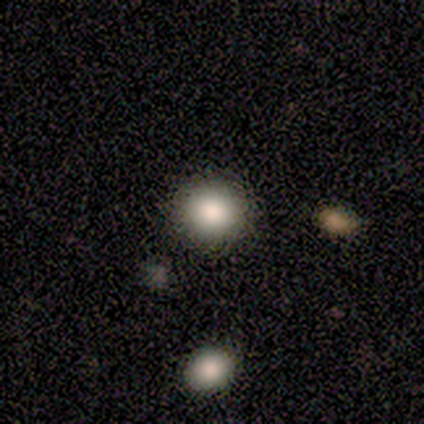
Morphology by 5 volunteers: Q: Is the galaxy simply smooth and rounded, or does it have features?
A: smooth — 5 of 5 (100%).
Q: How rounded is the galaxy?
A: round — 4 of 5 (80%).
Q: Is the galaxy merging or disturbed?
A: none — 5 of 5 (100%).